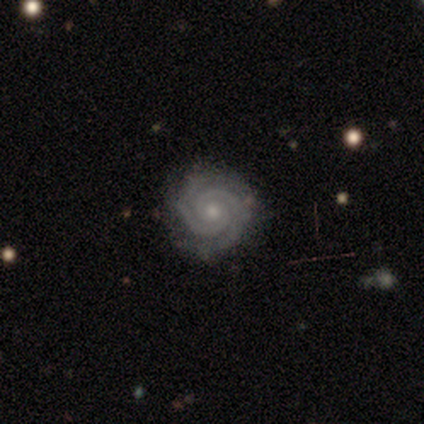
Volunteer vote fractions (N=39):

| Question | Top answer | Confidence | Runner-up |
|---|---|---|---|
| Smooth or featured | featured or disk | 97% | star or artifact (3%) |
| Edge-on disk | no | 100% | — |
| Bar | no | 89% | strong (5%) |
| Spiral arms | yes | 97% | no (3%) |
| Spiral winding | tight | 92% | medium (8%) |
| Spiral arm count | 2 | 76% | 3 (14%) |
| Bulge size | small | 61% | moderate (32%) |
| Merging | none | 89% | minor disturbance (11%) |